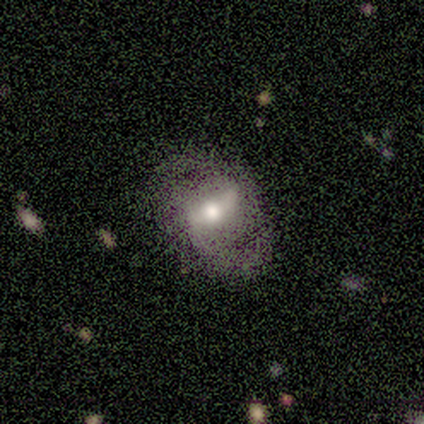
This is clearly a featured or disk galaxy (100%). It is clearly not viewed edge-on (100%). Bar: likely strong (60%). Spiral arm pattern: clearly yes (100%). Spiral arm count: clearly 2 (80%). Spiral winding: clearly medium (80%). Central bulge: clearly moderate (100%). Merging: clearly none (80%).